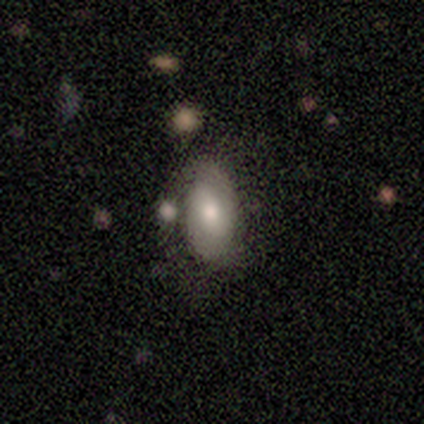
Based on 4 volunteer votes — This is likely a smooth galaxy (75%). How rounded: likely in between (67%). Merging: possibly major disturbance (50%).